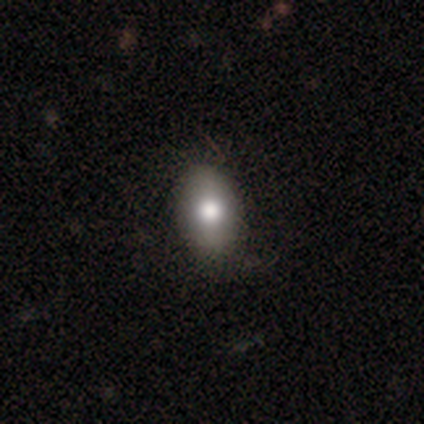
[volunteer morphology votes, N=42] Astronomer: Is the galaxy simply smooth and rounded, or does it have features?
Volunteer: smooth — 69%.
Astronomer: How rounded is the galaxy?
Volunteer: in between — 86%.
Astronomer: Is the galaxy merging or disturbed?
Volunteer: none — 64%.